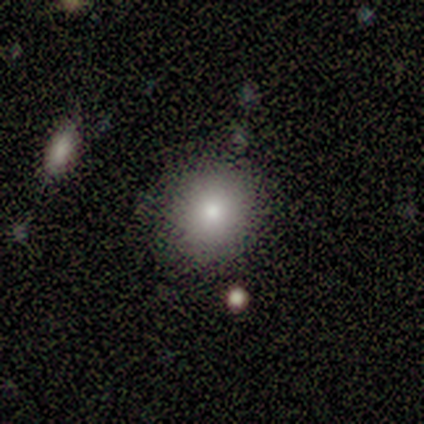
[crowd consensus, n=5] Morphology: type=smooth (60%); roundness=round (100%); merging=none (100%).